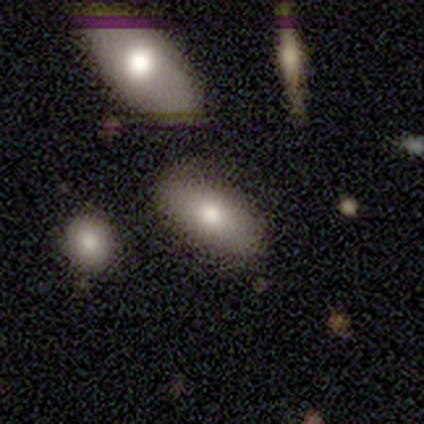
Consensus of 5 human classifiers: A smooth galaxy with no disk features (100%) that is in between round and cigar-shaped (100%).

Vote fractions:
- Smooth or featured? smooth: 100% / featured or disk: 0% / star or artifact: 0%
- How rounded? in between: 100% / round: 0% / cigar-shaped: 0%
- Merging? none: 80% / major disturbance: 20% / minor disturbance: 0% / merger: 0%